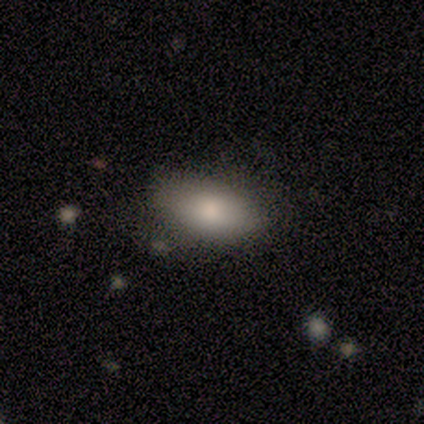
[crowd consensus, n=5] Smooth or featured? smooth (100%)
How rounded? in between (80%)
Merging? none (100%)